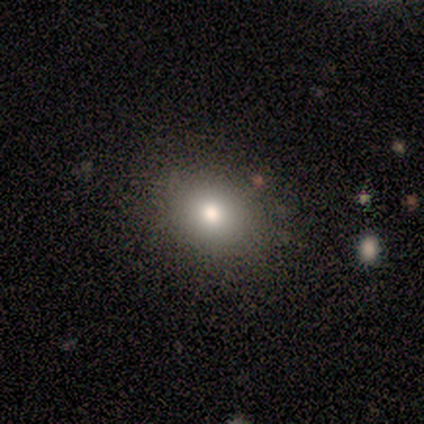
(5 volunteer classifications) A smooth galaxy with no disk features (80%) that is round (75%). Merging: none (100%).